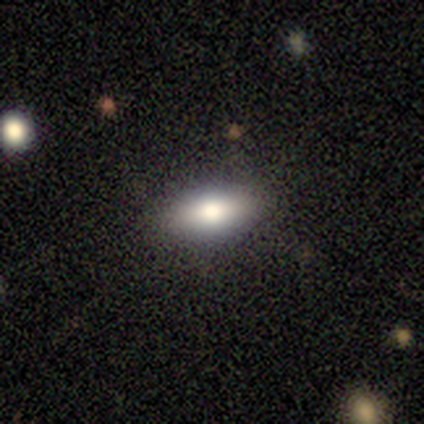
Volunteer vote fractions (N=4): Morphology: type=smooth (75%); roundness=in between (100%); merging=none (100%).